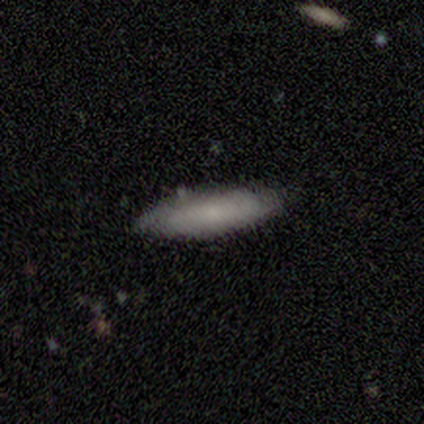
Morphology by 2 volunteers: A featured or disk galaxy (50%, tied with star or artifact) viewed edge-on (100%) with no central bulge (100%).

Vote fractions:
- Smooth or featured? featured or disk: 50% (tied) / star or artifact: 50% (tied) / smooth: 0%
- Edge-on disk? yes: 100% / no: 0%
- Edge-on bulge? none: 100% / boxy: 0% / rounded: 0%
- Merging? none: 100% / minor disturbance: 0% / major disturbance: 0% / merger: 0%